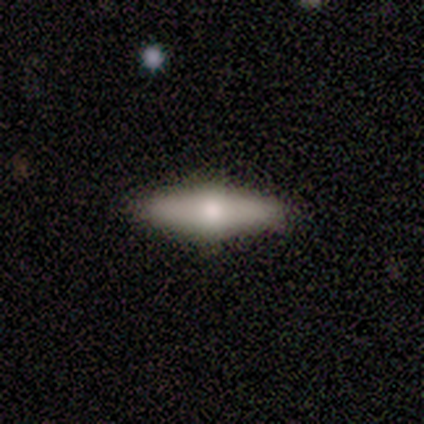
smooth-or-featured: featured or disk: 60% | smooth: 40% | star or artifact: 0%
  disk-edge-on: yes: 100% | no: 0%
    edge-on-bulge: rounded: 100% | boxy: 0% | none: 0%
  merging: none: 100% | minor disturbance: 0% | major disturbance: 0% | merger: 0%